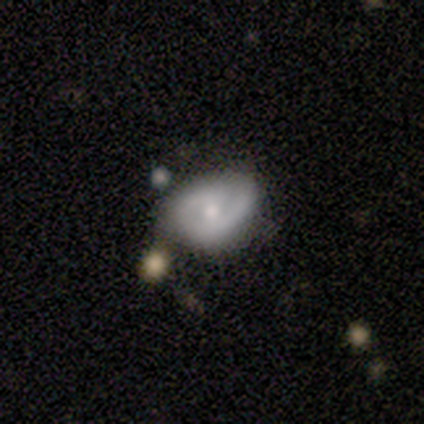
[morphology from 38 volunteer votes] Q: Smooth or featured?
A: featured or disk (63%); runner-up: smooth (21%)
Q: Edge-on disk?
A: no (100%)
Q: Bar?
A: weak (42%); tied with: no (42%)
Q: Spiral arms?
A: yes (71%); runner-up: no (29%)
Q: Spiral winding?
A: medium (53%); runner-up: tight (41%)
Q: Spiral arm count?
A: 2 (71%); runner-up: 1 (12%)
Q: Bulge size?
A: moderate (46%); tied with: small (46%)
Q: Merging?
A: none (53%); runner-up: minor disturbance (34%)